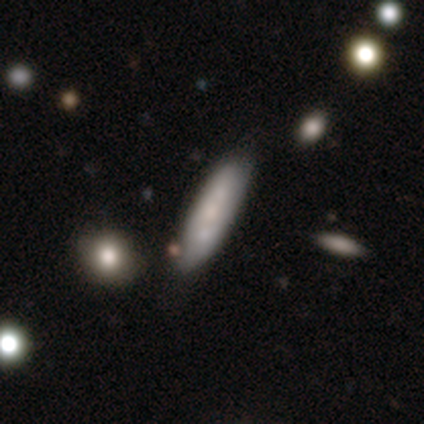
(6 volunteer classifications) Smooth or featured? smooth (50%)
How rounded? cigar-shaped (100%)
Merging? none (50%)